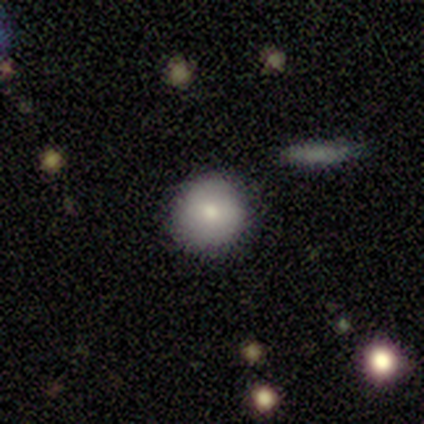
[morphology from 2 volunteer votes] smooth 100%, featured or disk 0%, star or artifact 0%. Down the decision tree: how rounded — round (100%); merging — none (100%).